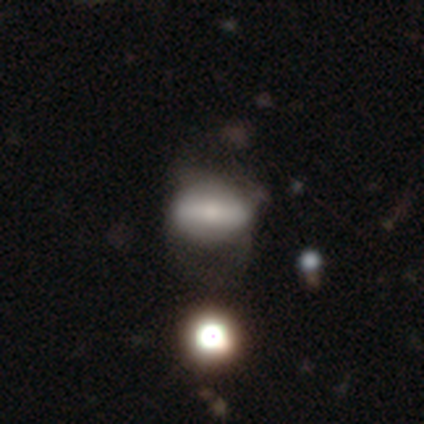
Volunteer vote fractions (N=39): smooth 49% (tied), featured or disk 49% (tied), star or artifact 3%. Down the decision tree: how rounded — in between (79%); merging — major disturbance (39%).